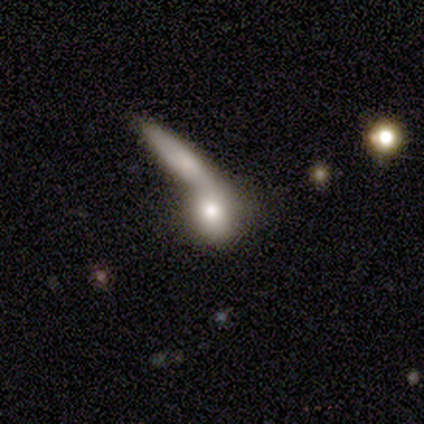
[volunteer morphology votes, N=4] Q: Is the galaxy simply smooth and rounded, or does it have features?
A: smooth — 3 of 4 (75%).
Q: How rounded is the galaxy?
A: cigar-shaped — 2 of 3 (67%).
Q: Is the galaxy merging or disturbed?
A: merger — 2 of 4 (50%).